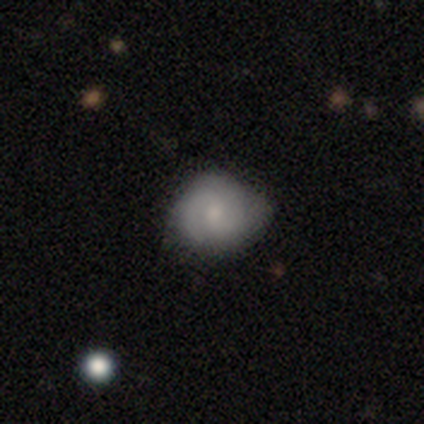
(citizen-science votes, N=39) A smooth galaxy with no disk features (54%) that is round (71%). Merging: none (56%).